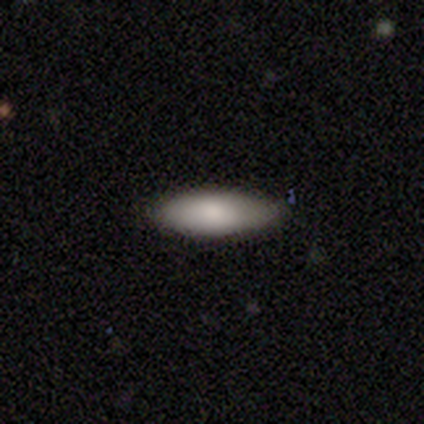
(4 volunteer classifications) smooth-or-featured: smooth: 75% | star or artifact: 25% | featured or disk: 0%
  how-rounded: in between: 100% | round: 0% | cigar-shaped: 0%
  merging: none: 67% | minor disturbance: 33% | major disturbance: 0% | merger: 0%